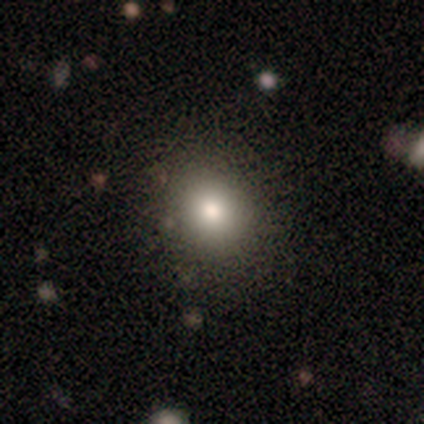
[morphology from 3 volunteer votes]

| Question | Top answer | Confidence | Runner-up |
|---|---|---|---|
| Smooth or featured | smooth | 100% | — |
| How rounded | round | 100% | — |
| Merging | none | 100% | — |